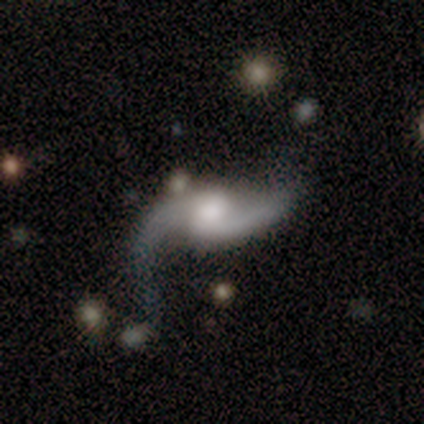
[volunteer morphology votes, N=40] This appears to be a featured or disk galaxy (88%) with a weak bar (50%), 2 (97%) loose (81%) spiral arms (94%) and a small central bulge (35%). Merging: none (63%).